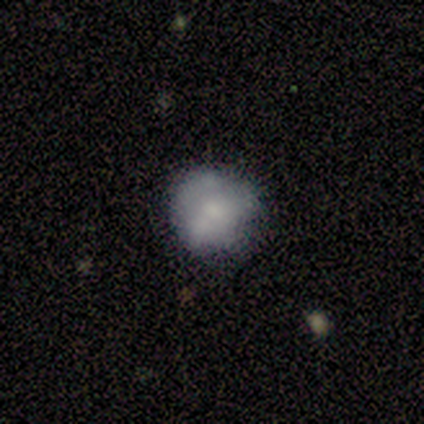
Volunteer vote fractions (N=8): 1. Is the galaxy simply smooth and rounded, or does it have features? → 62% smooth, 38% featured or disk, 0% star or artifact.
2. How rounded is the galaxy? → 100% round, 0% in between, 0% cigar-shaped.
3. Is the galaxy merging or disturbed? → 75% none, 12% minor disturbance, 12% merger, 0% major disturbance.